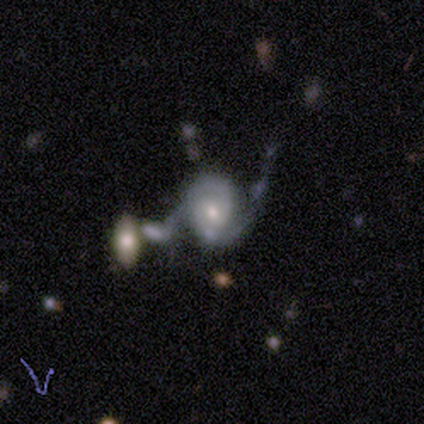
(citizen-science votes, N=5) Overall: featured or disk (60%; smooth 40%). Edge-on disk: no (100%). Bar: no (67%; weak 33%). Spiral arms: yes (100%). Spiral arm count: 2 (100%). Spiral winding: tight (100%). Bulge size: moderate (33%, tied with small and none). Merging: major disturbance (80%).